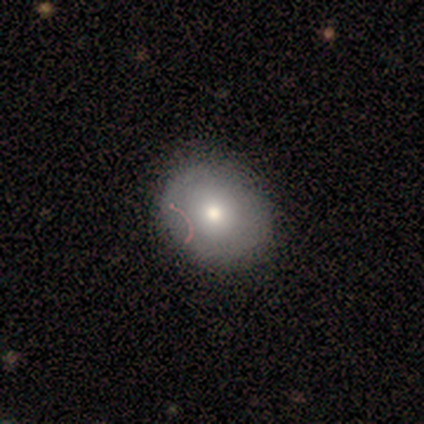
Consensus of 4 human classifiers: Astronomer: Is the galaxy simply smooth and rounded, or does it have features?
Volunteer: smooth — 100%.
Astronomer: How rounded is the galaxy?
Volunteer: round — 50%, tied with in between at 50%.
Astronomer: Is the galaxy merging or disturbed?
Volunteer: none — 75%.